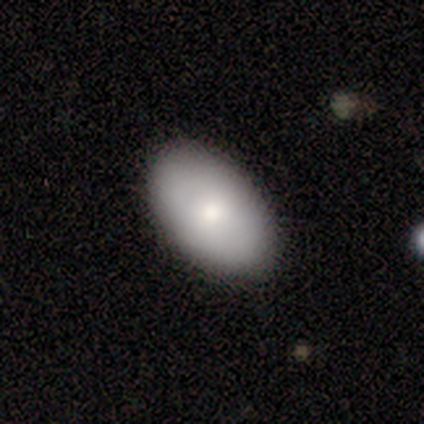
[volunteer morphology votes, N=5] Smooth or featured?
  - smooth: 80% *
  - star or artifact: 20%
  - featured or disk: 0%
How rounded?
  - in between: 75% *
  - cigar-shaped: 25%
  - round: 0%
Merging?
  - none: 100% *
  - minor disturbance: 0%
  - major disturbance: 0%
  - merger: 0%